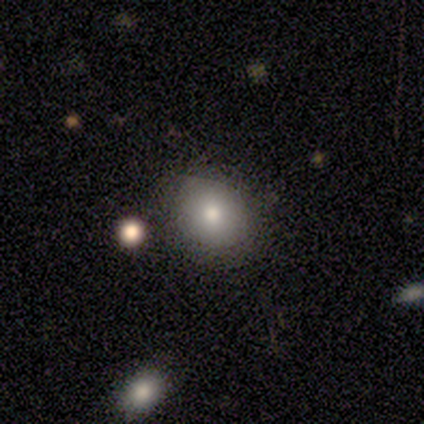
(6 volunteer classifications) This appears to be a smooth galaxy with no disk features (67%) that is round (100%). Merging: none (83%).